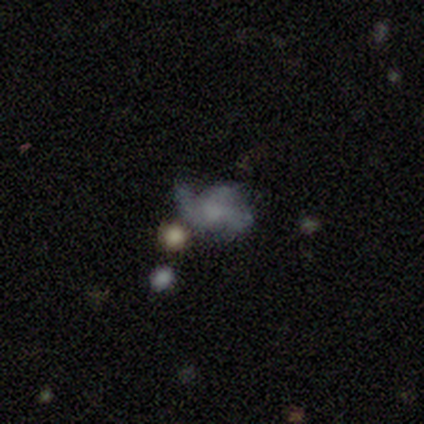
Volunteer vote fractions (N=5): Volunteers were most divided on "smooth or featured": smooth: 60%, featured or disk: 40%, star or artifact: 0%. More confident: how rounded — in between (100%); merging — major disturbance (60%).